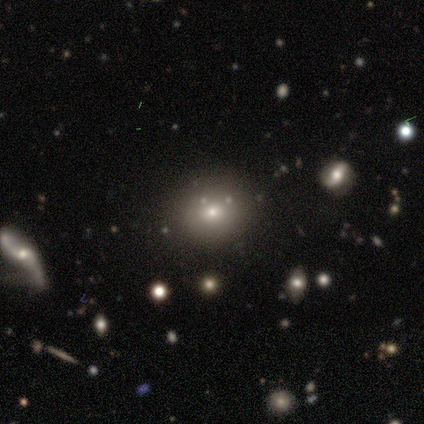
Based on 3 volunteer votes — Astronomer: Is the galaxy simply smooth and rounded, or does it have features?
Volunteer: smooth — 100%.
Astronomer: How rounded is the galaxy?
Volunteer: in between — 67%.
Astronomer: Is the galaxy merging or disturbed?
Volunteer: none — 67%.